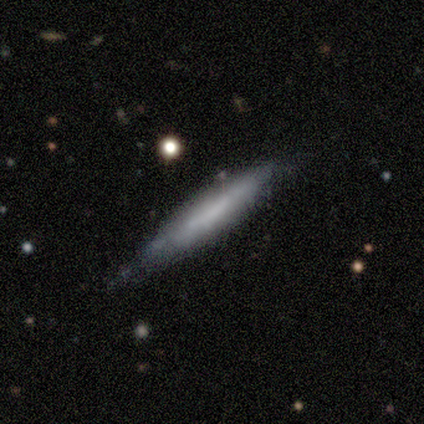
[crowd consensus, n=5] Volunteers were most divided on "smooth or featured": featured or disk: 60%, smooth: 20%, star or artifact: 20%. More confident: edge-on disk — yes (100%); edge-on bulge — none (100%); merging — minor disturbance (75%).